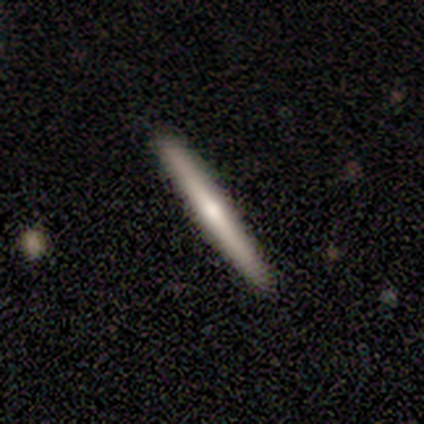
Volunteers were most divided on "smooth or featured" (2-way tie): smooth: 50%, featured or disk: 50%, star or artifact: 0%. More confident: how rounded — cigar-shaped (100%); merging — none (100%).